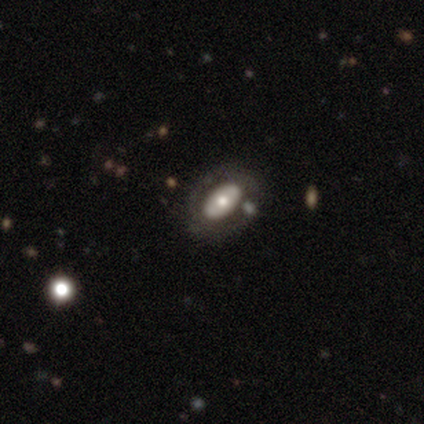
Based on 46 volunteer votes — Morphology: type=featured or disk (57%); edge-on=no (85%); bar=no (82%); spiral arms=no (91%); bulge=moderate (55%); merging=none (62%).